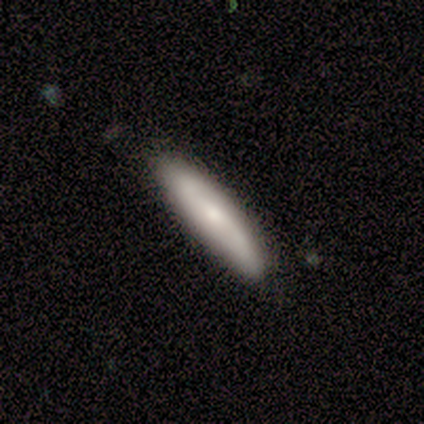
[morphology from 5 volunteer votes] Smooth or featured?
  - featured or disk: 60% *
  - smooth: 40%
  - star or artifact: 0%
Edge-on disk?
  - yes: 67% *
  - no: 33%
Edge-on bulge?
  - boxy: 50% * (tied)
  - rounded: 50% * (tied)
  - none: 0%
Merging?
  - none: 60% *
  - minor disturbance: 40%
  - major disturbance: 0%
  - merger: 0%